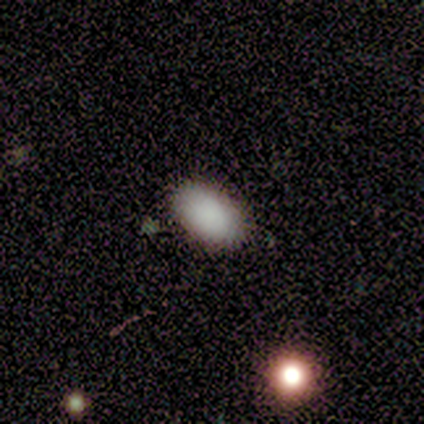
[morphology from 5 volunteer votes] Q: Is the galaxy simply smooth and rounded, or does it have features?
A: smooth — 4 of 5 (80%).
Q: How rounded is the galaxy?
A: in between — 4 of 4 (100%).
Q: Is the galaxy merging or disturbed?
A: none — 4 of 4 (100%).